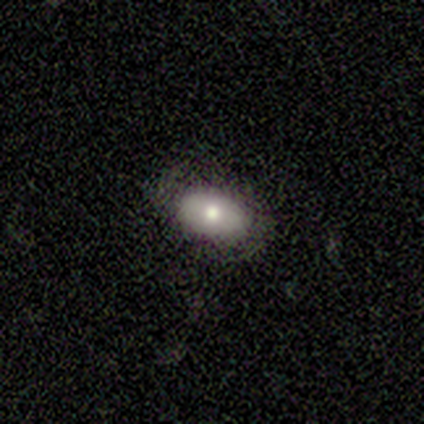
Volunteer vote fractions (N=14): smooth_or_featured: smooth (p=0.64) [alt: featured or disk p=0.29]
how_rounded: in between (p=1.00)
merging: none (p=0.77) [alt: minor disturbance p=0.23]